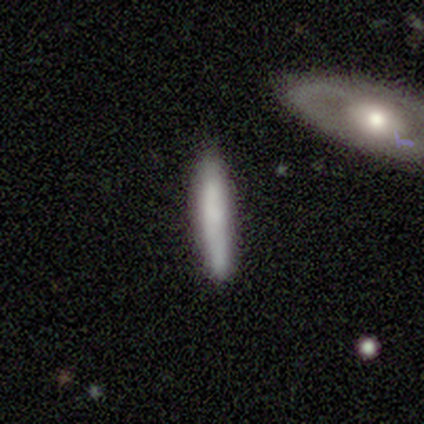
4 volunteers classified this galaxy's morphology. This is likely a smooth galaxy (75%). How rounded: clearly cigar-shaped (100%). Merging: likely none (67%).